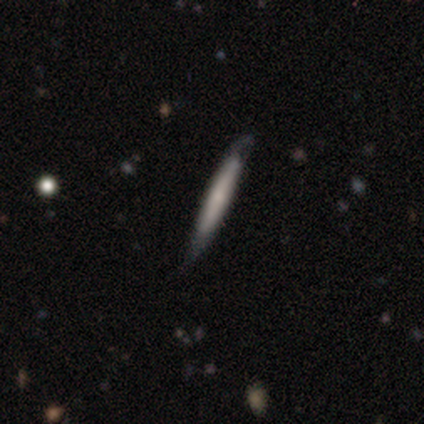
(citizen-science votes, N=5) Overall: smooth (40%, tied with featured or disk). How rounded: cigar-shaped (100%). Merging: none (50%, tied with minor disturbance).